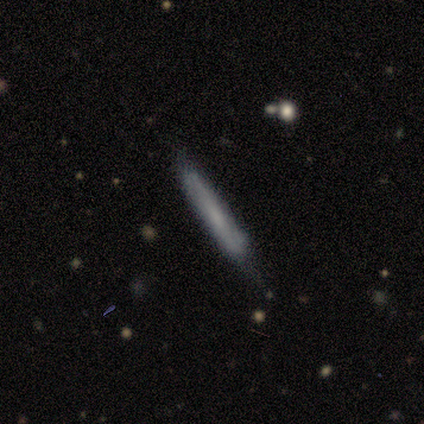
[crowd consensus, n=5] Smooth or featured? smooth (80%)
How rounded? cigar-shaped (100%)
Merging? none (100%)